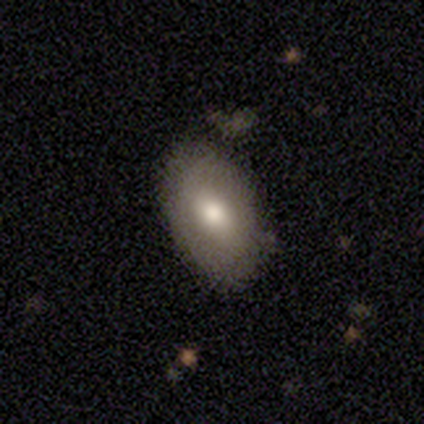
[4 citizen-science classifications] Morphology: type=smooth (50%, tied with featured or disk); roundness=in between (100%); merging=none (75%).